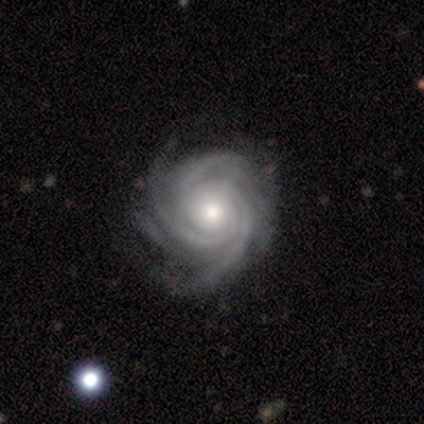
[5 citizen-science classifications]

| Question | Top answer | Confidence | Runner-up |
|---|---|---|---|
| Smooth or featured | featured or disk | 60% | star or artifact (40%) |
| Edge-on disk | no | 100% | — |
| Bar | no | 100% | — |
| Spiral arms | yes | 100% | — |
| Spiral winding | tight | 67% | medium (33%) |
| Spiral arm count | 3 | 33% | tied: 4 (33%), more than 4 (33%) |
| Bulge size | moderate | 100% | — |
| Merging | none | 67% | minor disturbance (33%) |